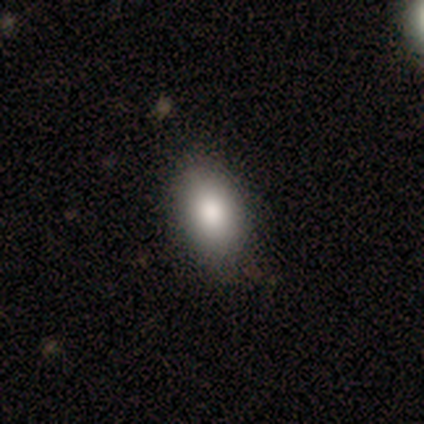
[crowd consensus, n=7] smooth-or-featured: smooth: 86% | star or artifact: 14% | featured or disk: 0%
  how-rounded: in between: 100% | round: 0% | cigar-shaped: 0%
  merging: none: 100% | minor disturbance: 0% | major disturbance: 0% | merger: 0%